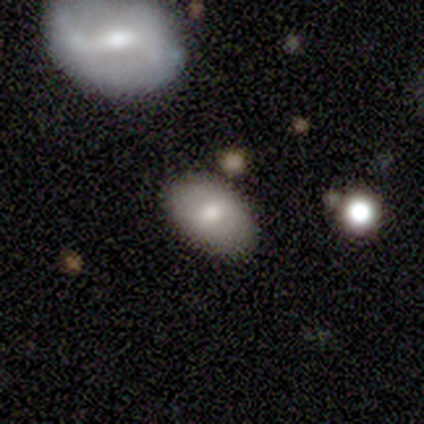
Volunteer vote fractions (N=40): Volunteers were most divided on "smooth or featured": smooth: 60%, featured or disk: 30%, star or artifact: 10%. More confident: how rounded — in between (92%); merging — none (78%).